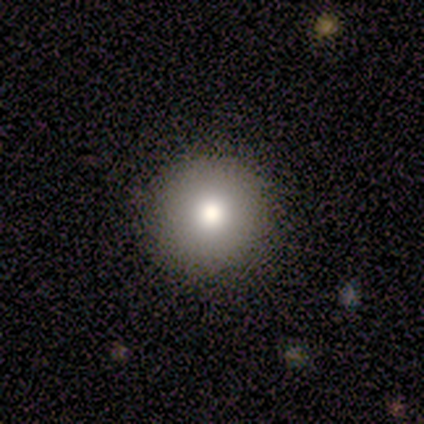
smooth_or_featured: smooth (p=1.00)
how_rounded: round (p=1.00)
merging: none (p=1.00)